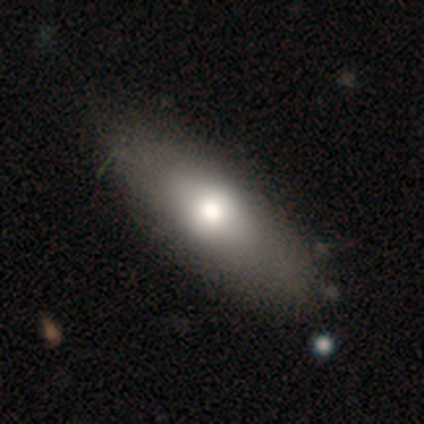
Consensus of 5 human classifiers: smooth 80%, star or artifact 20%, featured or disk 0%. Down the decision tree: how rounded — in between (100%); merging — none (75%).